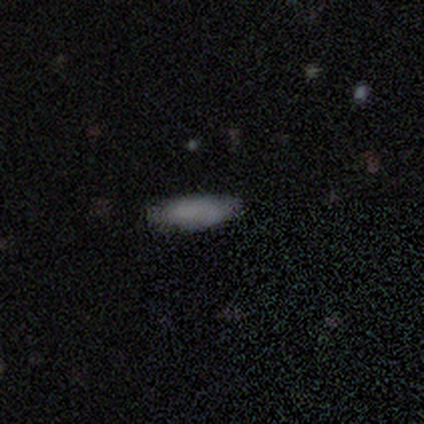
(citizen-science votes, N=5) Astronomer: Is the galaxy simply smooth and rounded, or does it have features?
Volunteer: smooth — 80%.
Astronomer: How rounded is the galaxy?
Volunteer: cigar-shaped — 75%.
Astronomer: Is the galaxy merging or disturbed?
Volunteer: none — 75%.